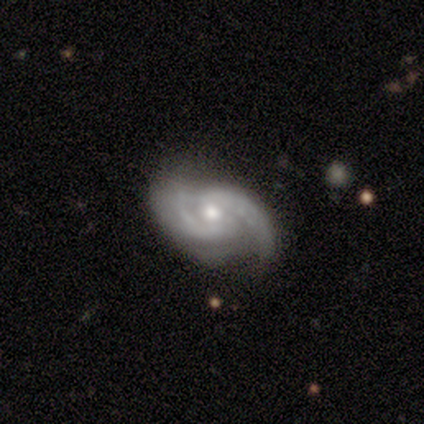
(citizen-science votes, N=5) smooth_or_featured: featured or disk (p=1.00)
disk_edge_on: no (p=1.00)
bar: weak (p=0.40) [tied with: no p=0.40]
has_spiral_arms: yes (p=1.00)
spiral_winding: medium (p=1.00)
spiral_arm_count: 2 (p=1.00)
bulge_size: moderate (p=0.80) [alt: dominant p=0.20]
merging: none (p=1.00)